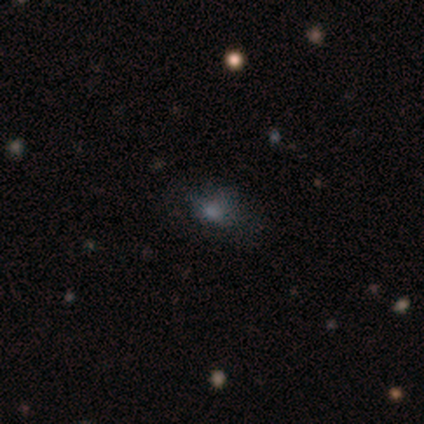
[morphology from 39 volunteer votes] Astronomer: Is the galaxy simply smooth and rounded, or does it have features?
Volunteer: smooth — 51% (runner-up: star or artifact, 36%).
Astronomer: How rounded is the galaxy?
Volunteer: in between — 75%.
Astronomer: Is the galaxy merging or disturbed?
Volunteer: none — 52%.